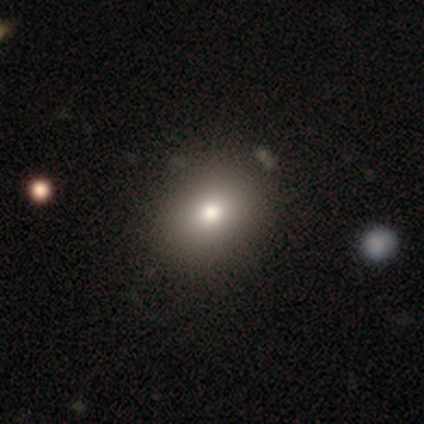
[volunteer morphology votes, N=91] smooth-or-featured: smooth: 81% | star or artifact: 10% | featured or disk: 9%
  how-rounded: round: 57% | in between: 43% | cigar-shaped: 0%
  merging: none: 87% | minor disturbance: 11% | major disturbance: 2% | merger: 0%